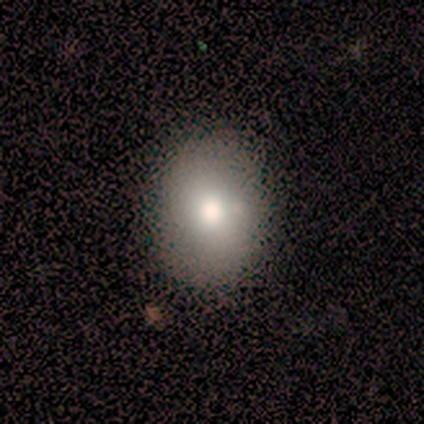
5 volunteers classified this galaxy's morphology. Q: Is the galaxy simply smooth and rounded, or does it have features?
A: smooth — 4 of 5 (80%).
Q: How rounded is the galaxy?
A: round — 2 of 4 (50%, tied with in between).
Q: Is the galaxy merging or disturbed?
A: none — 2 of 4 (50%, tied with minor disturbance).